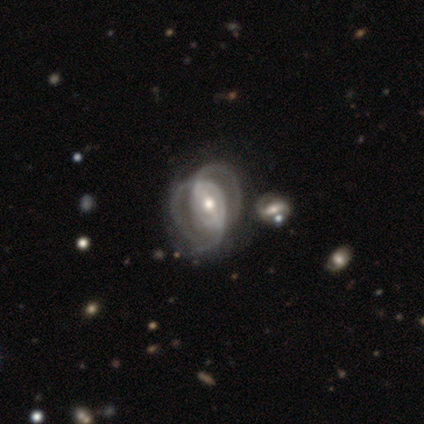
Morphology: type=featured or disk (80%); edge-on=no (100%); bar=strong (50%); spiral arms=yes (62%); winding=medium (60%); arm count=can't tell (35%); bulge=moderate (78%); merging=major disturbance (40%).